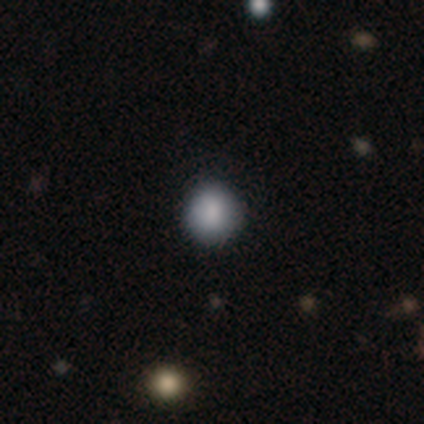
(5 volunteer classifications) Overall: smooth (100%). How rounded: round (100%). Merging: none (80%).